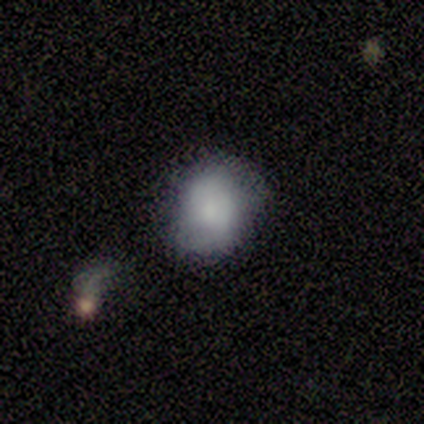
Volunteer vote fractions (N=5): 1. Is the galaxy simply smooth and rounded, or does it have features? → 100% smooth, 0% featured or disk, 0% star or artifact.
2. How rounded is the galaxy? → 100% round, 0% in between, 0% cigar-shaped.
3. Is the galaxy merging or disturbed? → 100% none, 0% minor disturbance, 0% major disturbance, 0% merger.